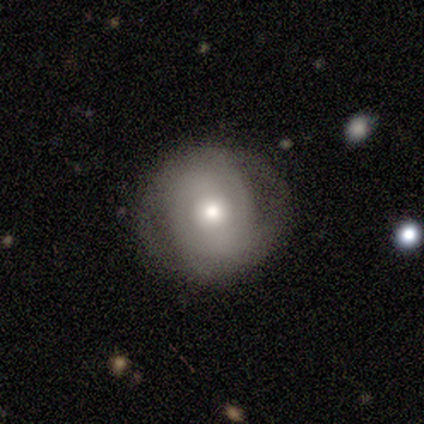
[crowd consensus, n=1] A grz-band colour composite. It shows a featured or disk galaxy (100%) with a strong bar (100%), 2 (100%) tight (100%) spiral arms (100%) and a moderate central bulge (100%). Merging: none (100%).